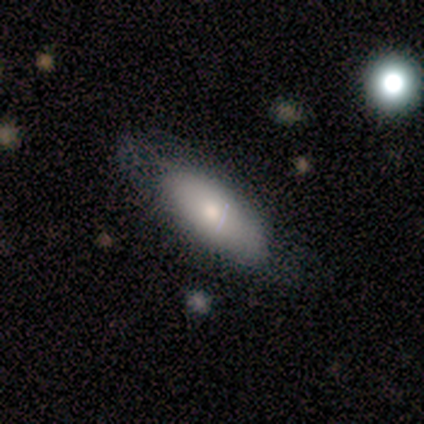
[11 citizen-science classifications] Smooth or featured?
  - smooth: 91% *
  - featured or disk: 9%
  - star or artifact: 0%
How rounded?
  - in between: 70% *
  - cigar-shaped: 20%
  - round: 10%
Merging?
  - none: 82% *
  - minor disturbance: 9%
  - merger: 9%
  - major disturbance: 0%